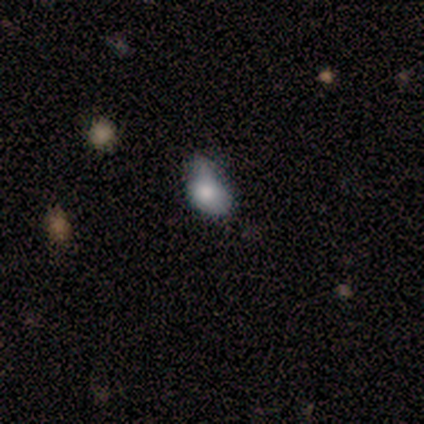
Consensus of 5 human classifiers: Smooth or featured? 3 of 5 (60%) said smooth. How rounded? 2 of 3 (67%) said in between. Merging? 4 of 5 (80%) said minor disturbance.